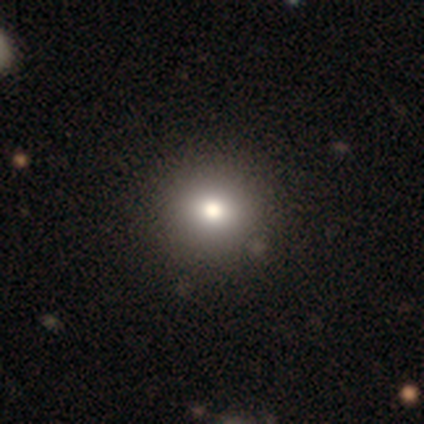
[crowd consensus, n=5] Overall: smooth (60%; featured or disk 20%). How rounded: round (100%). Merging: none (100%).